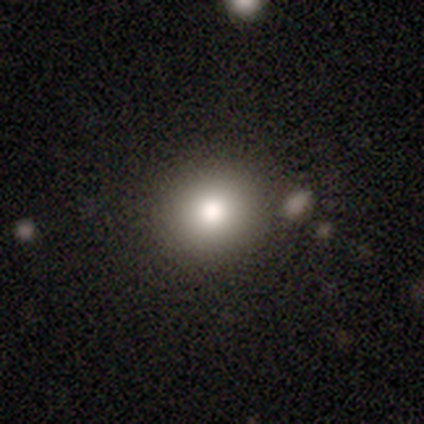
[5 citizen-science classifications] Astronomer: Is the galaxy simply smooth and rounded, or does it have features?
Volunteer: smooth — 100%.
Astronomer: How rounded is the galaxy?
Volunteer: round — 100%.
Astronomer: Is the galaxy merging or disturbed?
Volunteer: none — 80%.